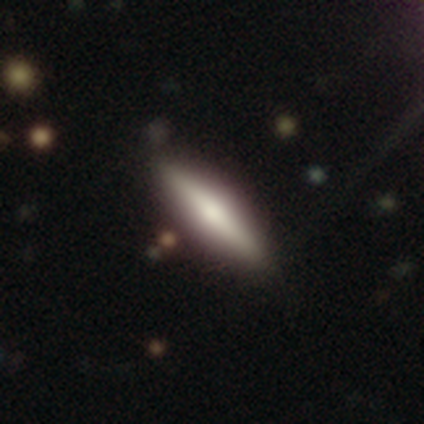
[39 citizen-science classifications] smooth-or-featured: smooth: 67% | featured or disk: 31% | star or artifact: 3%
  how-rounded: cigar-shaped: 88% | in between: 12% | round: 0%
  merging: none: 92% | minor disturbance: 5% | merger: 3% | major disturbance: 0%